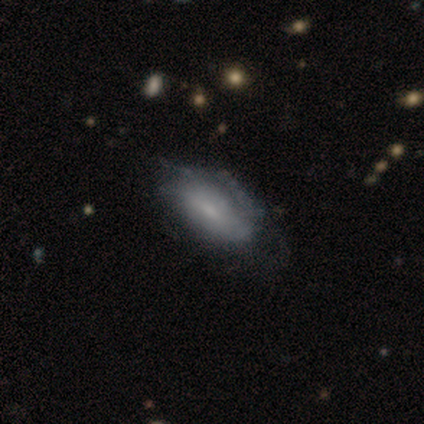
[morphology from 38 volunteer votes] A smooth galaxy with no disk features (50%, tied with featured or disk) that is in between round and cigar-shaped (95%).

Vote fractions:
- Smooth or featured? smooth: 50% (tied) / featured or disk: 50% (tied) / star or artifact: 0%
- How rounded? in between: 95% / cigar-shaped: 5% / round: 0%
- Merging? minor disturbance: 32% / none: 21% / major disturbance: 11% / merger: 3%